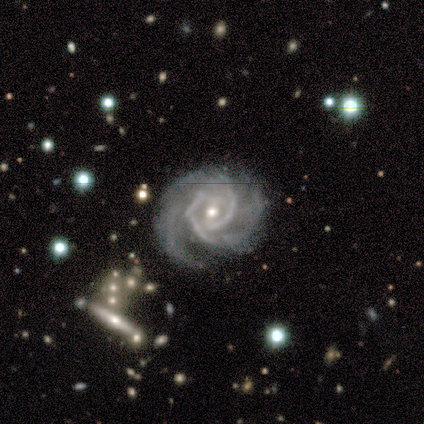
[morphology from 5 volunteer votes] smooth-or-featured: featured or disk: 100% | smooth: 0% | star or artifact: 0%
  disk-edge-on: no: 100% | yes: 0%
    bar: no: 60% | weak: 40% | strong: 0%
    has-spiral-arms: yes: 100% | no: 0%
      spiral-winding: tight: 60% | medium: 40% | loose: 0%
      spiral-arm-count: 2: 100% | 1: 0% | 3: 0% | 4: 0% | more than 4: 0% | can't tell: 0%
    bulge-size: moderate: 80% | small: 20% | dominant: 0% | large: 0% | none: 0%
  merging: none: 100% | minor disturbance: 0% | major disturbance: 0% | merger: 0%